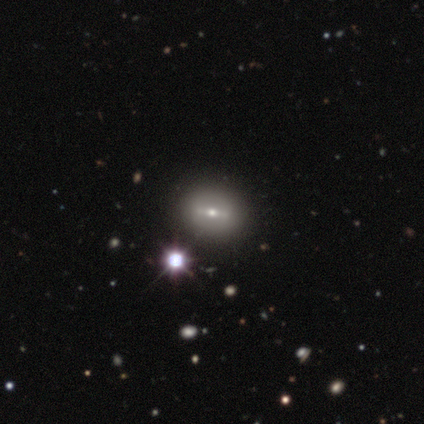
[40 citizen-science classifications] smooth_or_featured: featured or disk (p=0.45) [alt: smooth p=0.35]
disk_edge_on: no (p=0.78) [alt: yes p=0.22]
bar: strong (p=0.50) [alt: weak p=0.36]
has_spiral_arms: no (p=0.71) [alt: yes p=0.29]
bulge_size: small (p=0.57) [alt: moderate p=0.29]
merging: none (p=0.88) [alt: minor disturbance p=0.12]